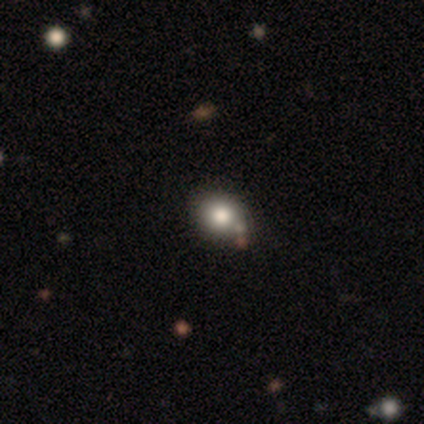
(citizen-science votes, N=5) smooth 80%, featured or disk 20%, star or artifact 0%. Down the decision tree: how rounded — in between (75%); merging — none (80%).